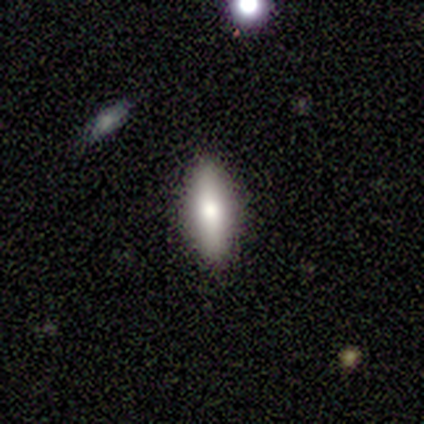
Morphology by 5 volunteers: A smooth galaxy with no disk features (60%) that is in between round and cigar-shaped (100%). Merging: none (100%).